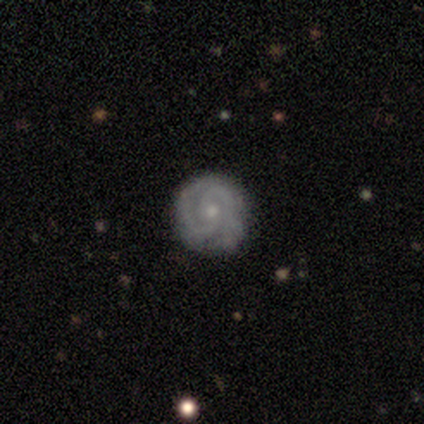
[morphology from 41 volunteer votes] featured or disk 88%, smooth 7%, star or artifact 5%. Down the decision tree: edge-on disk — no (100%); bar — no (75%); spiral arms — yes (100%); spiral arm count — 2 (72%); spiral winding — tight (64%); bulge size — small (75%); merging — none (87%).